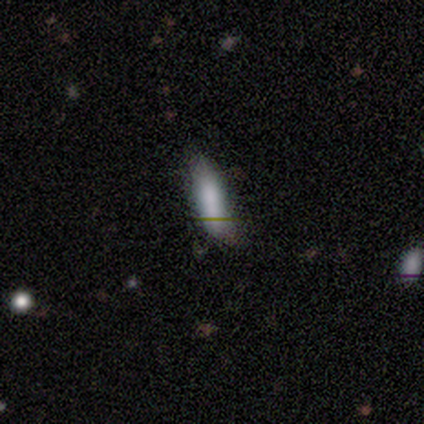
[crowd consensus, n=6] smooth-or-featured: smooth: 100% | featured or disk: 0% | star or artifact: 0%
  how-rounded: cigar-shaped: 67% | in between: 33% | round: 0%
  merging: none: 50% | minor disturbance: 33% | merger: 17% | major disturbance: 0%